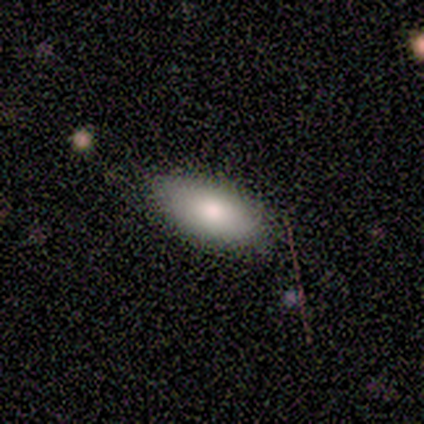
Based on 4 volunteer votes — Volunteers were most divided on "smooth or featured": smooth: 75%, star or artifact: 25%, featured or disk: 0%. More confident: how rounded — in between (100%); merging — none (100%).